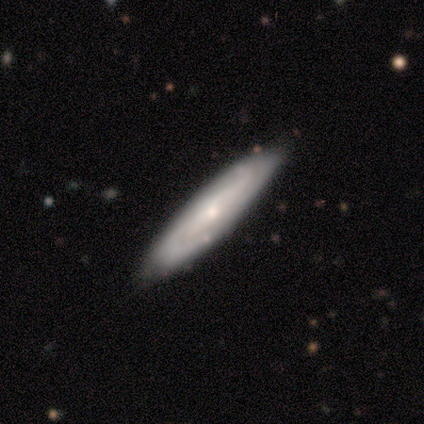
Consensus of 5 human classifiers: Smooth or featured: featured or disk — 100%
Edge-on disk: no — 100%
Bar: no — 60% (weak — 40%)
Spiral arms: yes — 100%
Spiral winding: medium — 80% (loose — 20%)
Spiral arm count: 2 — 100%
Bulge size: small — 60% (moderate — 40%)
Merging: none — 80% (merger — 20%)